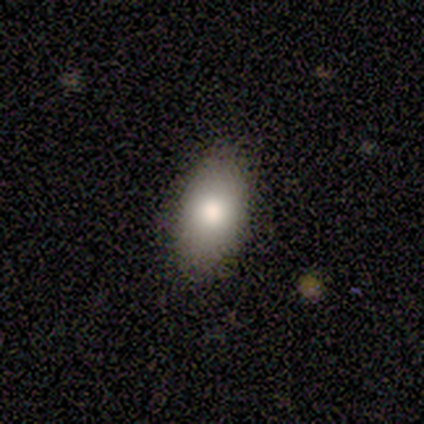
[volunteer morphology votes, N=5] Smooth or featured: smooth — 80% (star or artifact — 20%)
How rounded: in between — 100%
Merging: none — 100%